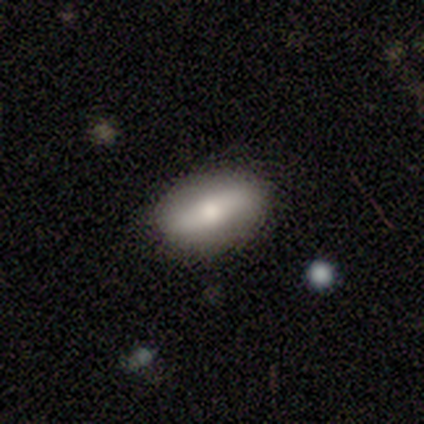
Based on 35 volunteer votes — Smooth or featured?
  - smooth: 69% *
  - featured or disk: 29%
  - star or artifact: 3%
How rounded?
  - in between: 92% *
  - round: 4%
  - cigar-shaped: 4%
Merging?
  - none: 88% *
  - minor disturbance: 9%
  - major disturbance: 3%
  - merger: 0%